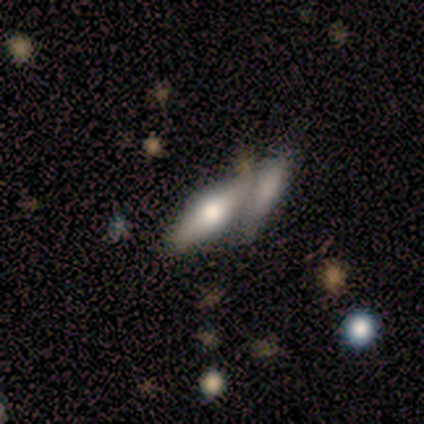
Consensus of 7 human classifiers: A smooth galaxy with no disk features (57%) that is in between round and cigar-shaped (50%, tied with cigar-shaped).

Vote fractions:
- Smooth or featured? smooth: 57% / featured or disk: 29% / star or artifact: 14%
- How rounded? in between: 50% (tied) / cigar-shaped: 50% (tied) / round: 0%
- Merging? merger: 67% / minor disturbance: 17% / major disturbance: 17% / none: 0%